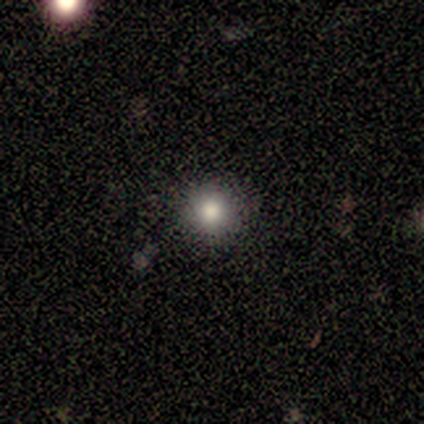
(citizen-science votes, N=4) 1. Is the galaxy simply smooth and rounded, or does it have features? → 75% smooth, 25% star or artifact, 0% featured or disk.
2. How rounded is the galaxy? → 100% round, 0% in between, 0% cigar-shaped.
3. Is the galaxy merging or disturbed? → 100% none, 0% minor disturbance, 0% major disturbance, 0% merger.